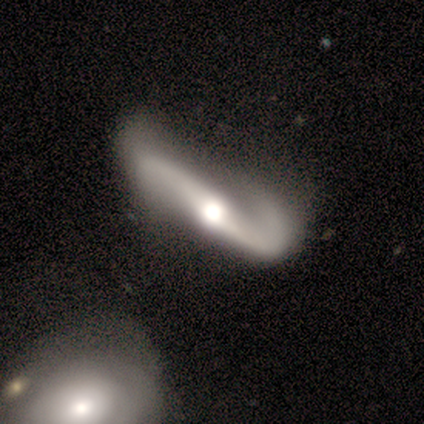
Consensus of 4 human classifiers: Smooth or featured?
  - featured or disk: 100% *
  - smooth: 0%
  - star or artifact: 0%
Edge-on disk?
  - no: 100% *
  - yes: 0%
Bar?
  - strong: 50% * (tied)
  - no: 50% * (tied)
  - weak: 0%
Spiral arms?
  - yes: 100% *
  - no: 0%
Spiral winding?
  - loose: 75% *
  - medium: 25%
  - tight: 0%
Spiral arm count?
  - 2: 100% *
  - 1: 0%
  - 3: 0%
  - 4: 0%
  - more than 4: 0%
  - can't tell: 0%
Bulge size?
  - small: 50% *
  - large: 25%
  - moderate: 25%
  - dominant: 0%
  - none: 0%
Merging?
  - none: 50% *
  - minor disturbance: 25%
  - merger: 25%
  - major disturbance: 0%